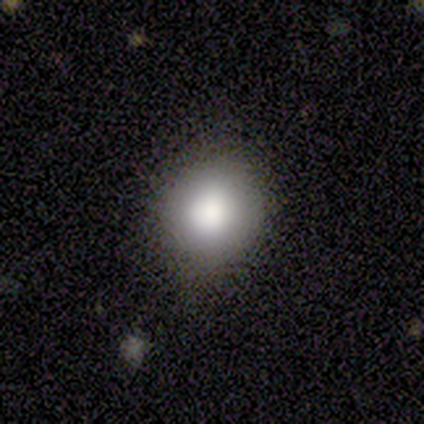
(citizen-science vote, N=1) Smooth or featured? smooth (100%)
How rounded? round (100%)
Merging? none (100%)